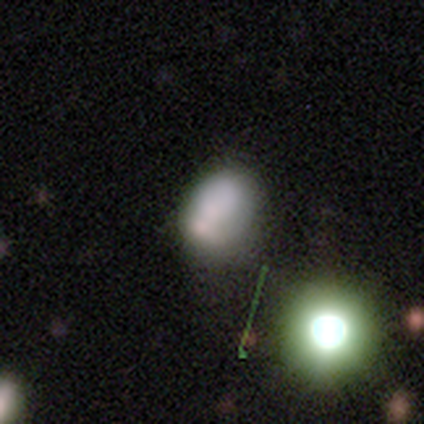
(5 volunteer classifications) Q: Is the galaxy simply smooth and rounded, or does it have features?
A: smooth — 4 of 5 (80%).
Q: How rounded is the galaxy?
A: in between — 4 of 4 (100%).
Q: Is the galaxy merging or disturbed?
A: none — 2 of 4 (50%, tied with minor disturbance).